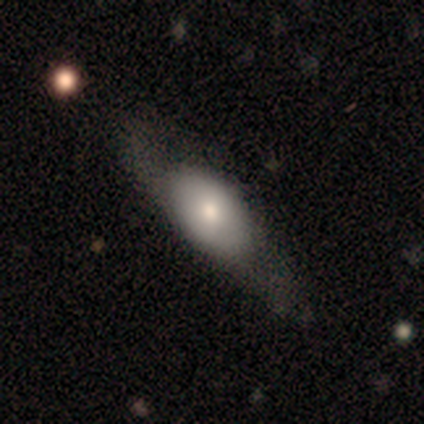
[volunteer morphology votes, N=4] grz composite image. It shows a smooth galaxy with no disk features (75%) that is in between round and cigar-shaped (67%). Merging: none (50%, tied with minor disturbance).